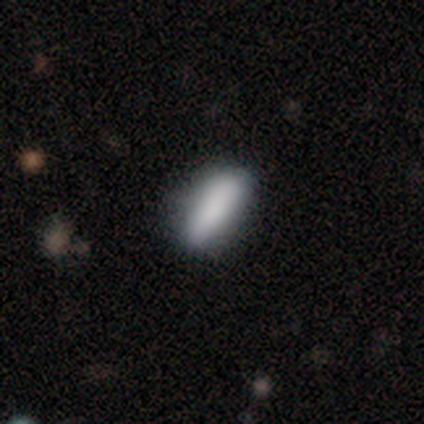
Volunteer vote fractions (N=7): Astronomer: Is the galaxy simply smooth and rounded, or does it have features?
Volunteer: smooth — 71%.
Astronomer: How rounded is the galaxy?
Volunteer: in between — 100%.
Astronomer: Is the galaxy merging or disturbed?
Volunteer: none — 100%.